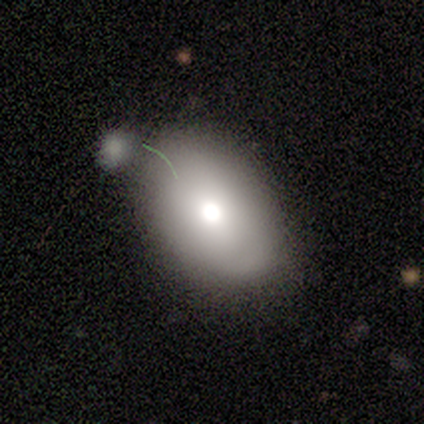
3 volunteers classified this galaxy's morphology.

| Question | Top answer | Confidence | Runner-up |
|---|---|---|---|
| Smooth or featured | smooth | 100% | — |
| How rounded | in between | 100% | — |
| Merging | none | 67% | minor disturbance (33%) |